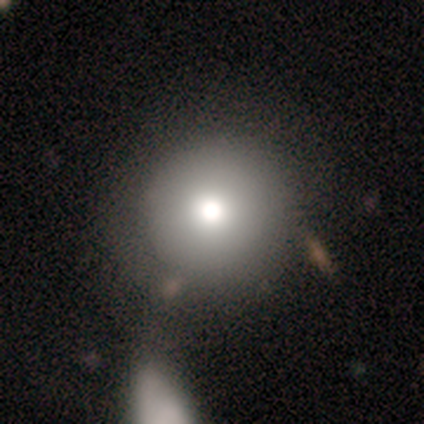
Smooth or featured?
  - smooth: 60% *
  - star or artifact: 40%
  - featured or disk: 0%
How rounded?
  - round: 100% *
  - in between: 0%
  - cigar-shaped: 0%
Merging?
  - none: 100% *
  - minor disturbance: 0%
  - major disturbance: 0%
  - merger: 0%